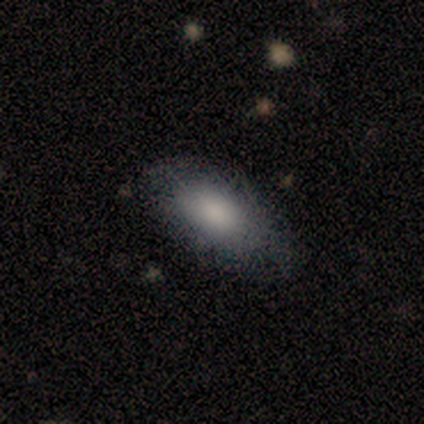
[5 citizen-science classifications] Smooth or featured: smooth — 100%
How rounded: in between — 100%
Merging: none — 60% (minor disturbance — 40%)